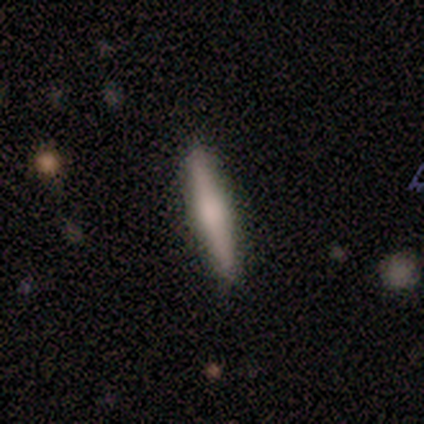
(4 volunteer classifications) Q: Smooth or featured?
A: smooth (50%); tied with: featured or disk (50%)
Q: How rounded?
A: cigar-shaped (100%)
Q: Merging?
A: none (100%)